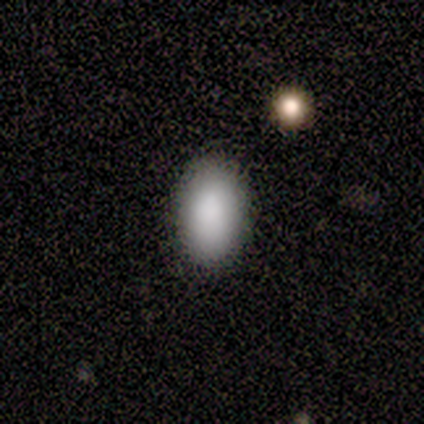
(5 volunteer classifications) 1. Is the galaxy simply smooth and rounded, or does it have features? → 100% smooth, 0% featured or disk, 0% star or artifact.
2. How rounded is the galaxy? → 100% in between, 0% round, 0% cigar-shaped.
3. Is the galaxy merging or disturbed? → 100% none, 0% minor disturbance, 0% major disturbance, 0% merger.